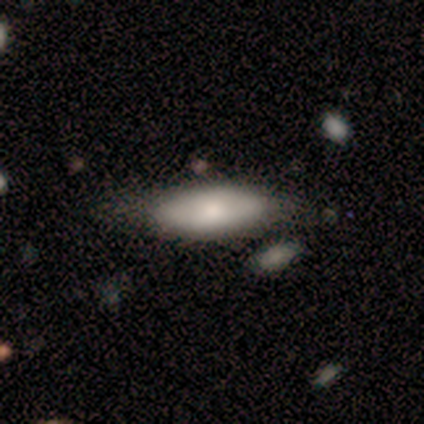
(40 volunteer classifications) Smooth or featured? 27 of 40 (68%) said smooth. How rounded? 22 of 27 (81%) said in between. Merging? 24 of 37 (65%) said none.